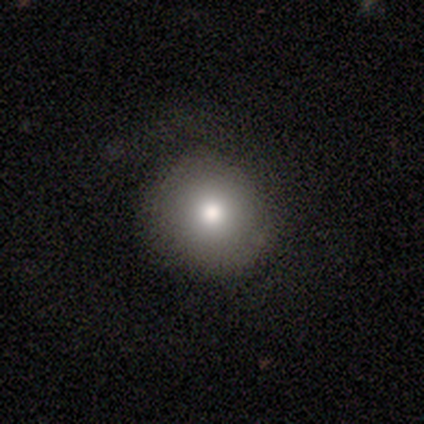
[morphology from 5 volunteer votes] smooth-or-featured: smooth: 100% | featured or disk: 0% | star or artifact: 0%
  how-rounded: round: 80% | in between: 20% | cigar-shaped: 0%
  merging: none: 40% (tied) | minor disturbance: 40% (tied) | major disturbance: 20% | merger: 0%